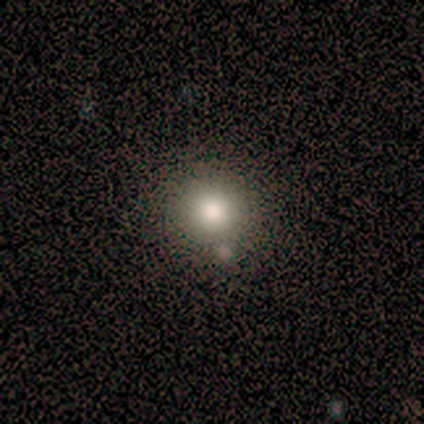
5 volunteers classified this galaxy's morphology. Q: Smooth or featured?
A: smooth (100%)
Q: How rounded?
A: round (100%)
Q: Merging?
A: none (60%); runner-up: minor disturbance (20%)